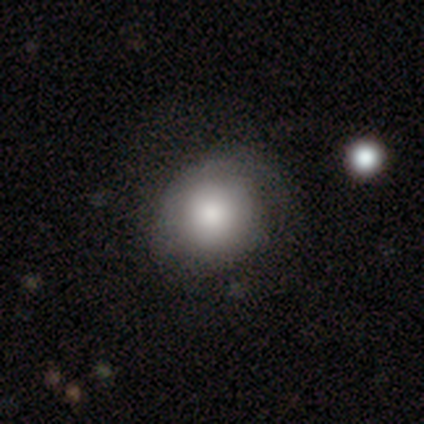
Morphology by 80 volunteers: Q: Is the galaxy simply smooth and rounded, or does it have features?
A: smooth — 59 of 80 (74%).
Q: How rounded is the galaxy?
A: round — 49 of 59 (83%).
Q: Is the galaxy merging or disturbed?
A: none — 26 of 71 (37%).